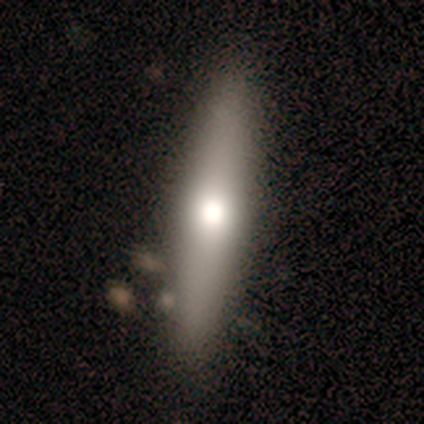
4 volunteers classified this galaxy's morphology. This is likely a smooth galaxy (75%). How rounded: likely cigar-shaped (67%). Merging: clearly none (100%).